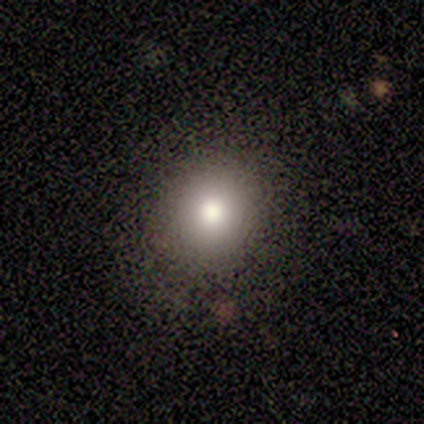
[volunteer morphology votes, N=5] Smooth or featured?
  - smooth: 80% *
  - featured or disk: 20%
  - star or artifact: 0%
How rounded?
  - round: 100% *
  - in between: 0%
  - cigar-shaped: 0%
Merging?
  - none: 100% *
  - minor disturbance: 0%
  - major disturbance: 0%
  - merger: 0%